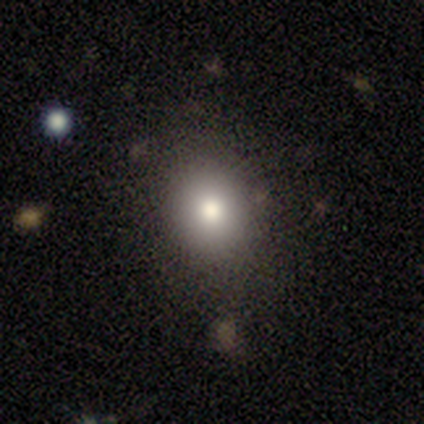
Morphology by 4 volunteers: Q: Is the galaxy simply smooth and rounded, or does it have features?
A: smooth — 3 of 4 (75%).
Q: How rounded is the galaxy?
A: round — 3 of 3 (100%).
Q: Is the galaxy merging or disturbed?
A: none — 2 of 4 (50%).